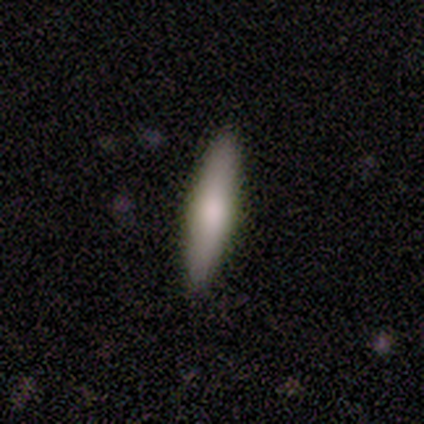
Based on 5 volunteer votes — Smooth or featured?
  - featured or disk: 60% *
  - smooth: 20%
  - star or artifact: 20%
Edge-on disk?
  - yes: 67% *
  - no: 33%
Edge-on bulge?
  - boxy: 50% * (tied)
  - rounded: 50% * (tied)
  - none: 0%
Merging?
  - none: 100% *
  - minor disturbance: 0%
  - major disturbance: 0%
  - merger: 0%